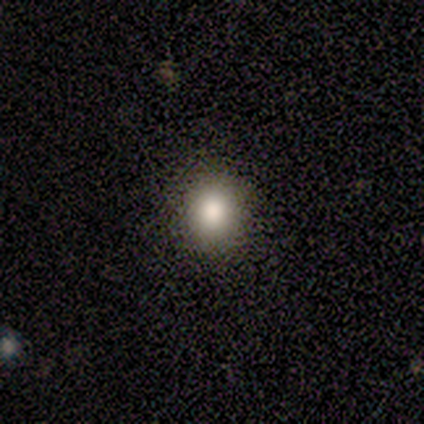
Q: Smooth or featured?
A: smooth (60%); runner-up: star or artifact (40%)
Q: How rounded?
A: round (67%); runner-up: in between (33%)
Q: Merging?
A: none (100%)